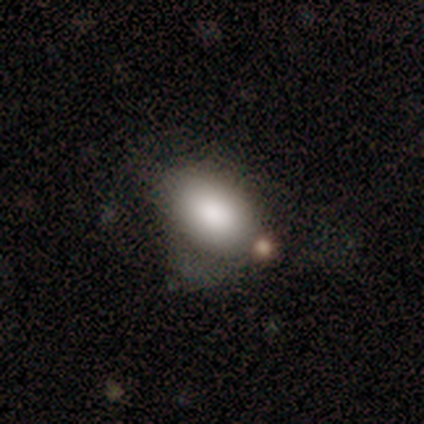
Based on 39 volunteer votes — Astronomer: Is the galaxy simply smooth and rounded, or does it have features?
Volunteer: smooth — 90%.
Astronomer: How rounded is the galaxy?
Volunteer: in between — 89%.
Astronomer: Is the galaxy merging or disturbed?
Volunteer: none — 39% (runner-up: minor disturbance, 36%).